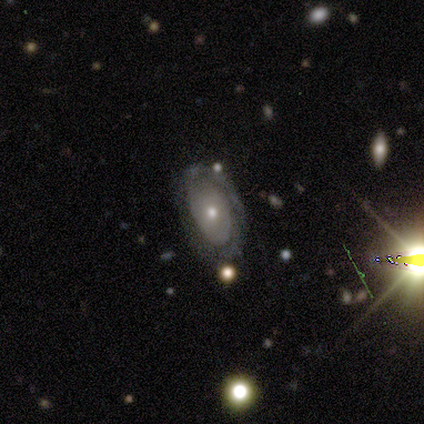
Morphology: type=featured or disk (69%); edge-on=no (89%); bar=no (100%); spiral arms=yes (75%); winding=tight (83%); arm count=can't tell (67%); bulge=moderate (50%); merging=none (82%).